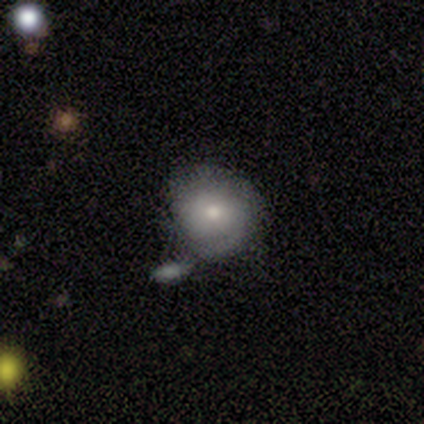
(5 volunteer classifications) smooth 60%, featured or disk 40%, star or artifact 0%. Down the decision tree: how rounded — round (100%); merging — none (60%).